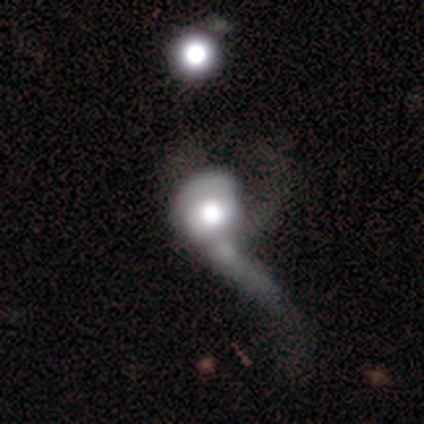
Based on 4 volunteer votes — Morphology: type=featured or disk (75%); edge-on=no (100%); bar=no (100%); spiral arms=no (67%); bulge=large (67%); merging=merger (75%).